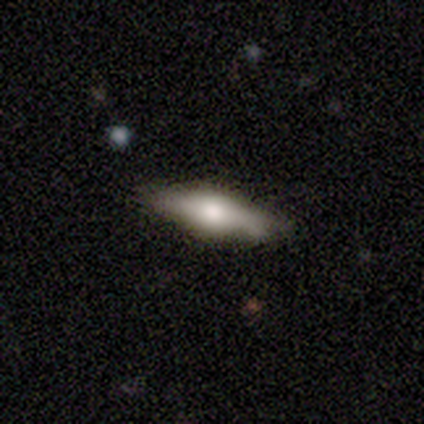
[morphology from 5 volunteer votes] smooth_or_featured: featured or disk (p=0.80) [alt: smooth p=0.20]
disk_edge_on: yes (p=0.75) [alt: no p=0.25]
edge_on_bulge: rounded (p=1.00)
merging: none (p=0.80) [alt: minor disturbance p=0.20]